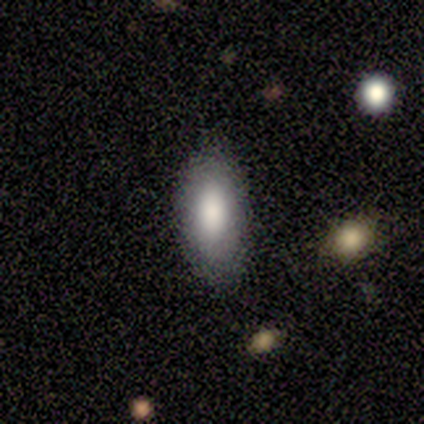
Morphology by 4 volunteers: Smooth or featured? 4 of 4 (100%) said smooth. How rounded? 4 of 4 (100%) said in between. Merging? 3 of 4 (75%) said none.